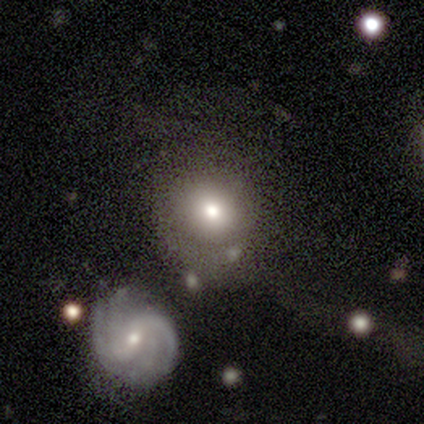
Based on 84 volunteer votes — This appears to be a smooth galaxy with no disk features (65%) that is round (84%). Merging: none (53%).